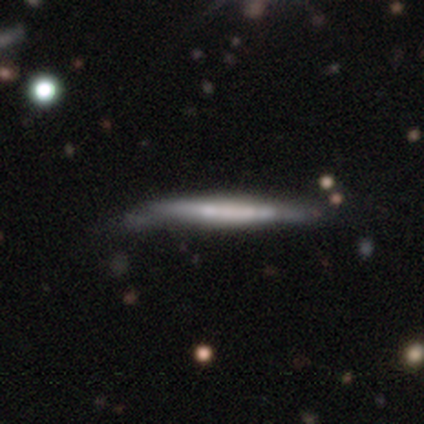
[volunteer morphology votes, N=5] smooth_or_featured: featured or disk (p=0.60) [alt: smooth p=0.40]
disk_edge_on: yes (p=1.00)
edge_on_bulge: none (p=0.67) [alt: boxy p=0.33]
merging: none (p=0.60) [alt: minor disturbance p=0.40]